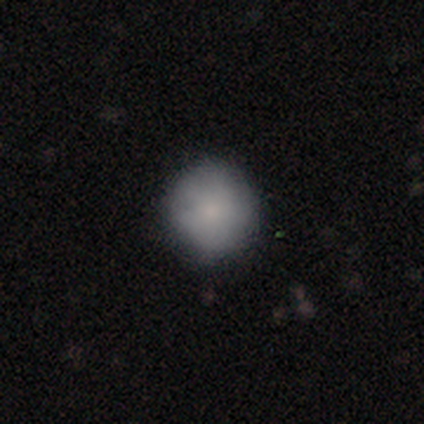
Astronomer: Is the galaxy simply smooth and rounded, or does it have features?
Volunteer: smooth — 82%.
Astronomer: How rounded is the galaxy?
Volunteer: round — 93%.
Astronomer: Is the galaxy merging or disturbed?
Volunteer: none — 85%.